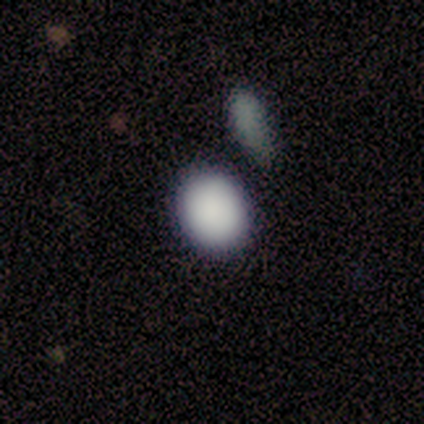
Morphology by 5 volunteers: Smooth or featured? 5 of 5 (100%) said smooth. How rounded? 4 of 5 (80%) said in between. Merging? 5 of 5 (100%) said none.